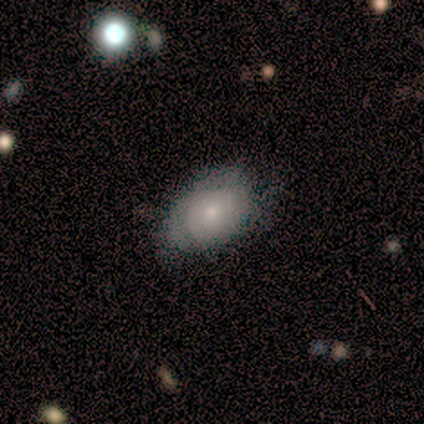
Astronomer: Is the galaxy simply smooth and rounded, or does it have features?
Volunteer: smooth — 60% (runner-up: featured or disk, 40%).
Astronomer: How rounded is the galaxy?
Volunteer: in between — 67%.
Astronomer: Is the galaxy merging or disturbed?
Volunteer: none — 80%.